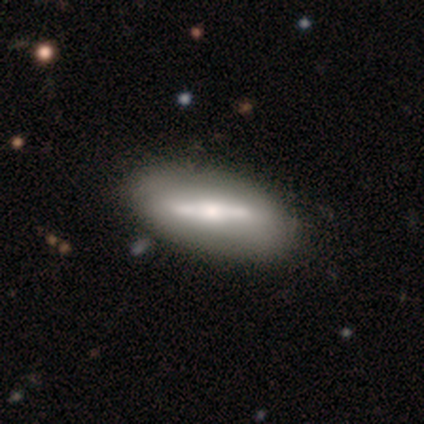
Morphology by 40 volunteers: A featured or disk galaxy (75%) with a strong bar (90%), no spiral arms (86%) and a moderate central bulge (71%).

Vote fractions:
- Smooth or featured? featured or disk: 75% / smooth: 22% / star or artifact: 2%
- Edge-on disk? no: 70% / yes: 30%
- Bar? strong: 90% / no: 10% / weak: 0%
- Spiral arms? no: 86% / yes: 14%
- Bulge size? moderate: 71% / small: 29% / dominant: 0% / large: 0% / none: 0%
- Merging? none: 62% / minor disturbance: 8% / merger: 5% / major disturbance: 3%